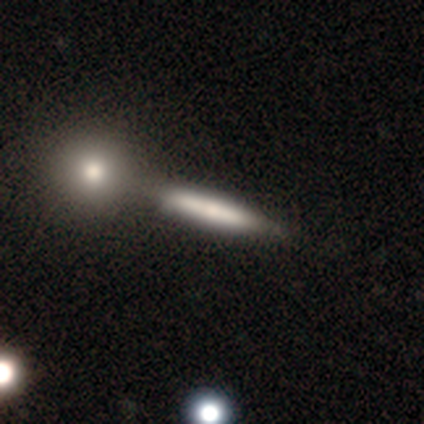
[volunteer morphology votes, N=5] A smooth galaxy with no disk features (60%) that is cigar-shaped (67%).

Vote fractions:
- Smooth or featured? smooth: 60% / featured or disk: 40% / star or artifact: 0%
- How rounded? cigar-shaped: 67% / in between: 33% / round: 0%
- Merging? none: 60% / merger: 40% / minor disturbance: 0% / major disturbance: 0%